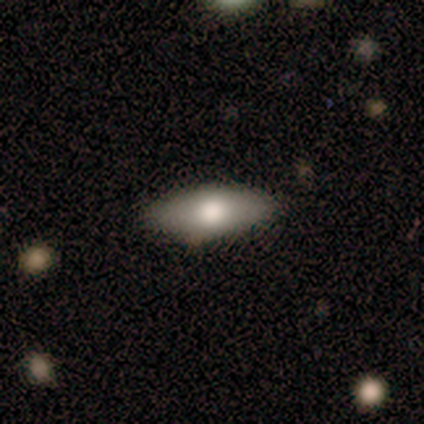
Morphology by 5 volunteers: Smooth or featured? smooth (60%)
How rounded? in between (67%)
Merging? none (75%)